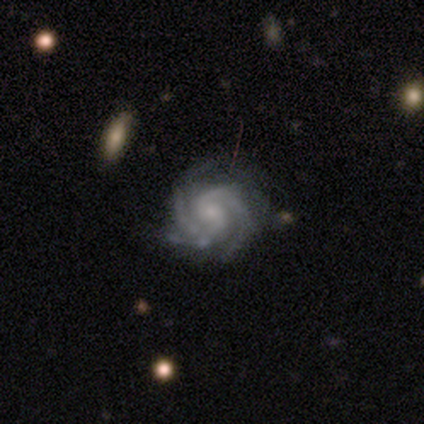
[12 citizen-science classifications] This appears to be a featured or disk galaxy (100%) with no bar (83%), 2 (42%) tight (83%) spiral arms (100%) and a small central bulge (92%). Merging: none (67%).